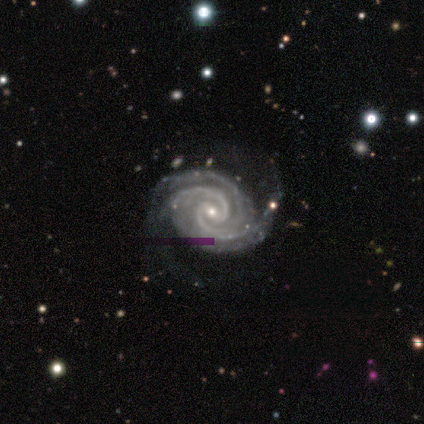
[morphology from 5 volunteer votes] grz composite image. It shows a featured or disk galaxy (100%) with no bar (60%), 4 (60%) tight (80%) spiral arms (100%) and a small central bulge (80%). Merging: none (60%).